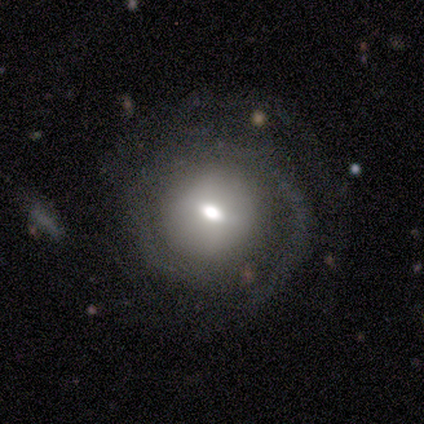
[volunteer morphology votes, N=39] featured or disk 59%, smooth 26%, star or artifact 15%. Down the decision tree: edge-on disk — no (96%); bar — no (59%); spiral arms — yes (86%); spiral arm count — 2 (53%); spiral winding — tight (58%); bulge size — moderate (50%); merging — none (64%).